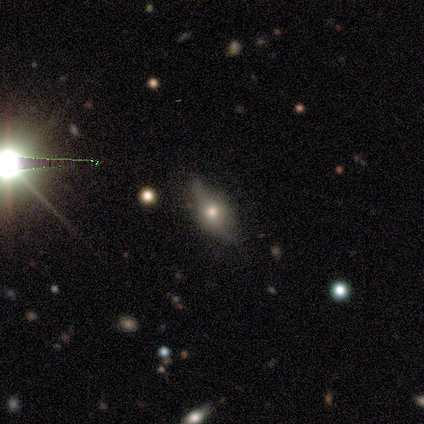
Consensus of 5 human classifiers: Morphology: type=smooth (40%, tied with star or artifact); roundness=round (50%, tied with in between); merging=none (67%).